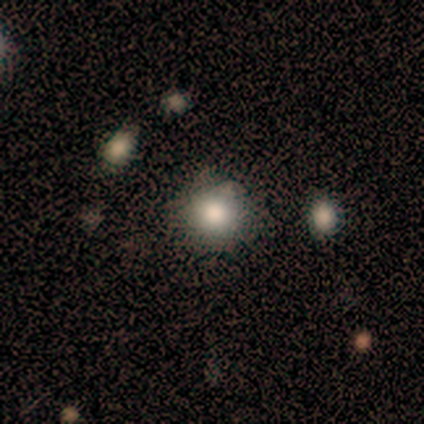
smooth_or_featured: smooth (p=0.80) [alt: star or artifact p=0.20]
how_rounded: round (p=1.00)
merging: none (p=0.75) [alt: merger p=0.25]